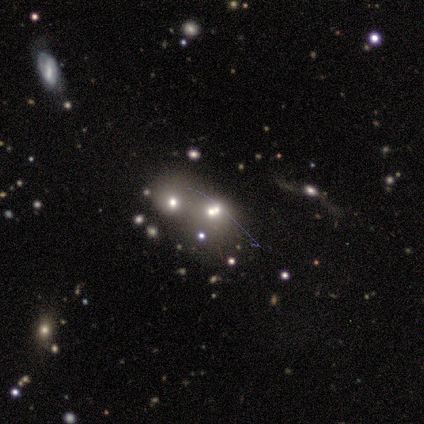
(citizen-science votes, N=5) Smooth or featured? 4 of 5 (80%) said smooth. How rounded? 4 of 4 (100%) said round. Merging? 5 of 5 (100%) said merger.